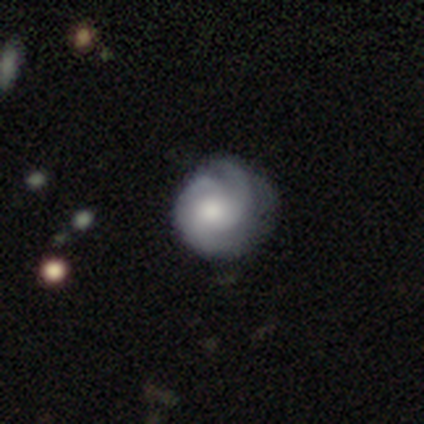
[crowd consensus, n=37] This appears to be a featured or disk galaxy (84%) with no bar (77%), 3 (39%) tight (71%) spiral arms (100%) and a large central bulge (45%). Merging: none (58%).